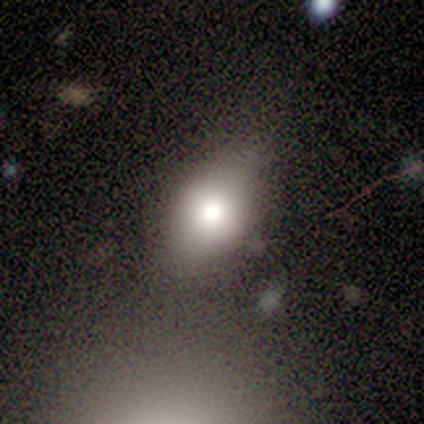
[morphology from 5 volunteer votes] Smooth or featured? smooth (80%)
How rounded? in between (100%)
Merging? none (60%)